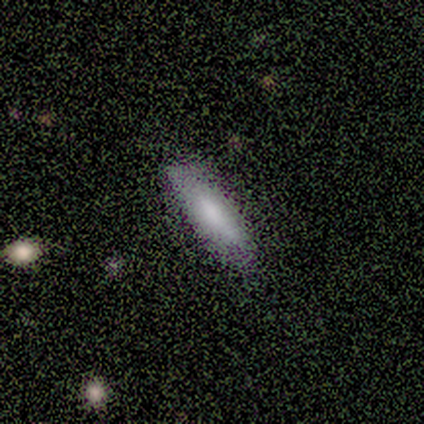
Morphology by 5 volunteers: smooth 100%, featured or disk 0%, star or artifact 0%. Down the decision tree: how rounded — cigar-shaped (60%); merging — none (100%).